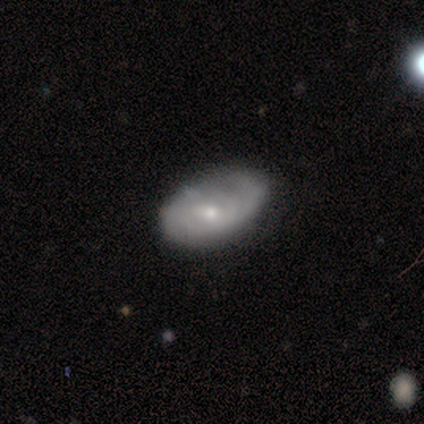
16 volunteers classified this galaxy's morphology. Overall: featured or disk (56%; smooth 38%). Edge-on disk: no (100%). Bar: no (78%). Spiral arms: yes (56%; no 44%). Spiral arm count: 2 (80%). Spiral winding: medium (60%; tight 20%). Bulge size: small (56%; moderate 33%). Merging: none (60%; minor disturbance 40%).